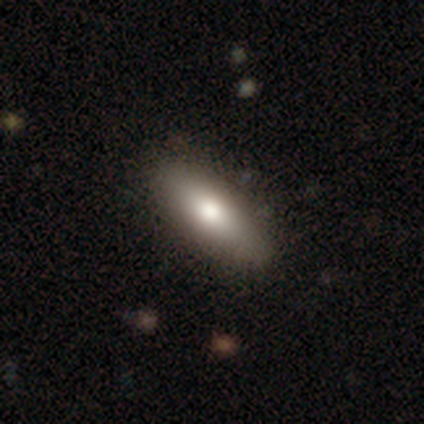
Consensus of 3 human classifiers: Smooth or featured? smooth (100%)
How rounded? in between (67%)
Merging? none (67%)